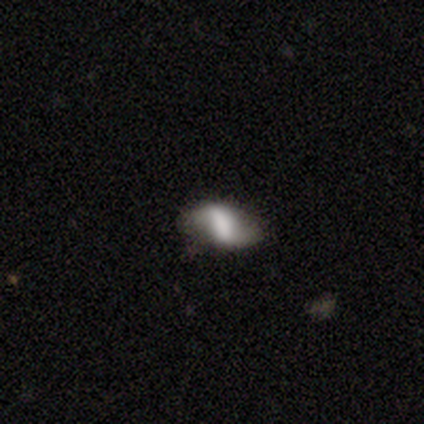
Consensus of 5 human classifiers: Overall: featured or disk (40%, tied with star or artifact). Edge-on disk: no (100%). Bar: strong (100%). Spiral arms: yes (100%). Spiral arm count: 2 (100%). Spiral winding: loose (100%). Bulge size: large (50%, tied with moderate). Merging: none (33%, tied with minor disturbance and major disturbance).